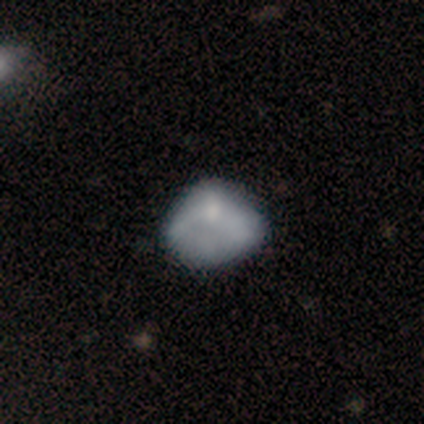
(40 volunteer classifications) Smooth or featured? featured or disk (48%)
Edge-on disk? no (100%)
Bar? no (79%)
Spiral arms? no (79%)
Bulge size? none (58%)
Merging? none (43%)